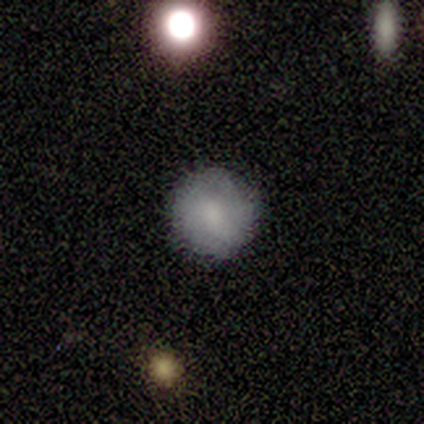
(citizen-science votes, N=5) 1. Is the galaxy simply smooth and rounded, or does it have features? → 100% smooth, 0% featured or disk, 0% star or artifact.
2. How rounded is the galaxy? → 80% round, 20% in between, 0% cigar-shaped.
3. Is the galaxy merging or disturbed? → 100% none, 0% minor disturbance, 0% major disturbance, 0% merger.